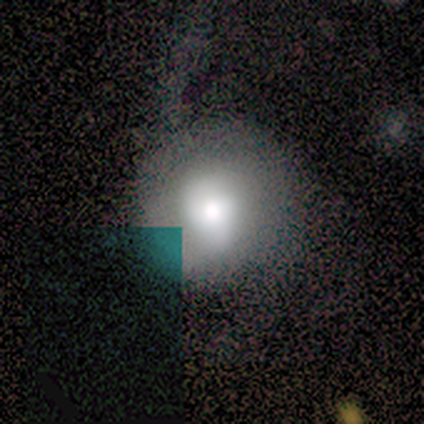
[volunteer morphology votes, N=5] This is likely a featured or disk galaxy (60%). It is clearly not viewed edge-on (100%). Bar: marginally strong (33%, tied with weak and no). Spiral arm pattern: clearly yes (100%). Spiral arm count: likely 2 (67%). Spiral winding: likely tight (67%). Central bulge: marginally large (33%, tied with moderate and small). Merging: clearly none (80%).